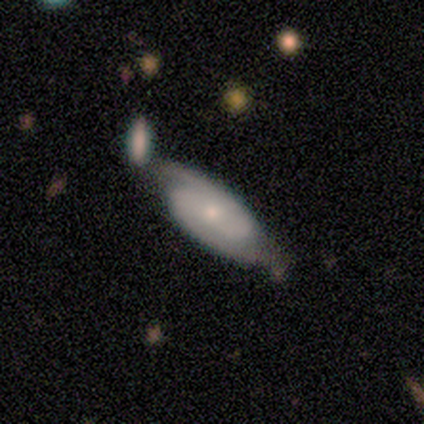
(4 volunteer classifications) Smooth or featured? 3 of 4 (75%) said featured or disk. Edge-on disk? 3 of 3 (100%) said no. Bar? 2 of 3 (67%) said no. Spiral arms? 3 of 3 (100%) said yes. Spiral winding? 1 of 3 (33%, tied with medium and loose) said tight. Spiral arm count? 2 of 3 (67%) said 2. Bulge size? 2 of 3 (67%) said moderate. Merging? 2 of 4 (50%) said minor disturbance.